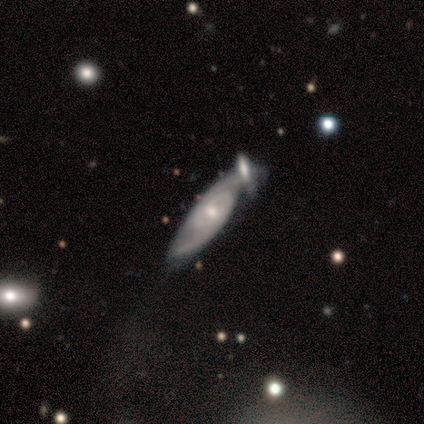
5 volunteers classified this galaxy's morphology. Overall: featured or disk (100%). Edge-on disk: yes (60%; no 40%). Edge-on bulge: rounded (100%). Merging: none (60%; minor disturbance 40%).